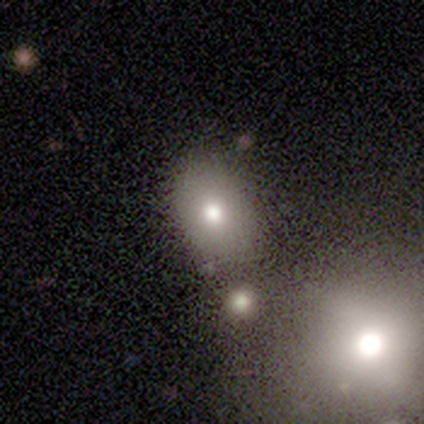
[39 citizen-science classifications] smooth_or_featured: smooth (p=0.74) [alt: featured or disk p=0.15]
how_rounded: in between (p=0.83) [alt: round p=0.17]
merging: none (p=0.63) [alt: merger p=0.17]